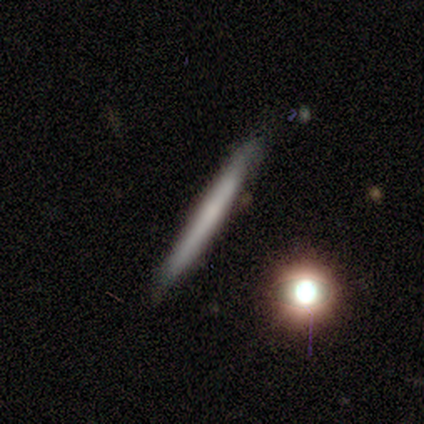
A featured or disk galaxy (67%) viewed edge-on (100%) with no central bulge (100%). Merging: none (100%).